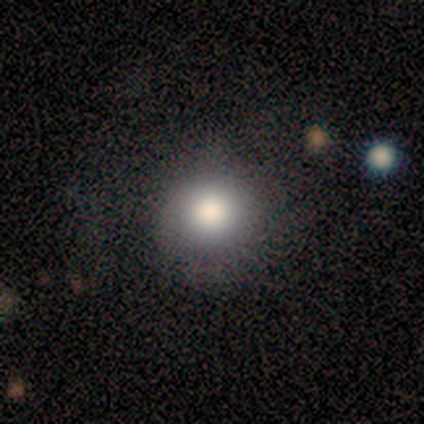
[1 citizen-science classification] A smooth galaxy with no disk features (100%) that is round (100%). Merging: none (100%).